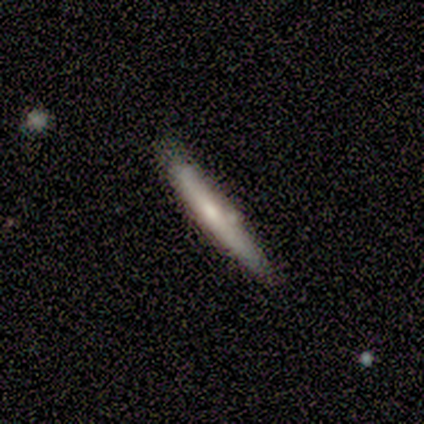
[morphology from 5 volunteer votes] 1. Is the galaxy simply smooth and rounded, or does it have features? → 60% smooth, 40% featured or disk, 0% star or artifact.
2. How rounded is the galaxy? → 100% cigar-shaped, 0% round, 0% in between.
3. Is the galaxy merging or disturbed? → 100% none, 0% minor disturbance, 0% major disturbance, 0% merger.